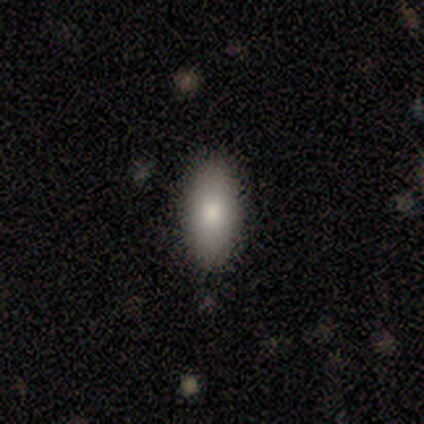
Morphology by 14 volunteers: Q: Smooth or featured?
A: smooth (86%); runner-up: featured or disk (14%)
Q: How rounded?
A: in between (92%); runner-up: cigar-shaped (8%)
Q: Merging?
A: none (79%); runner-up: minor disturbance (21%)